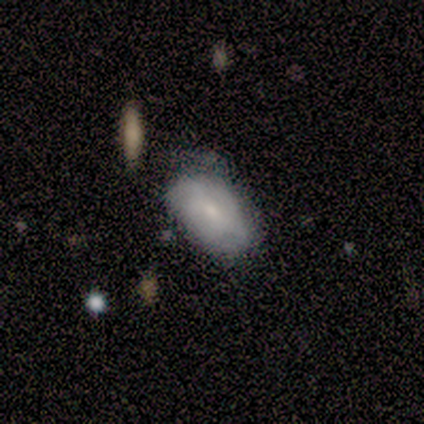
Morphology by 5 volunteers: This is marginally a smooth galaxy (40%, tied with featured or disk). How rounded: clearly in between (100%). Merging: possibly none (50%, tied with minor disturbance).